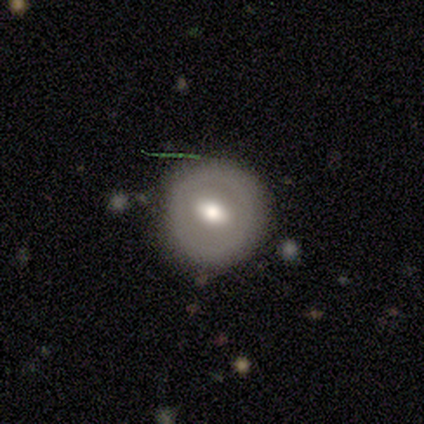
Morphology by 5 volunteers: This is likely a smooth galaxy (60%). How rounded: clearly round (100%). Merging: likely none (75%).